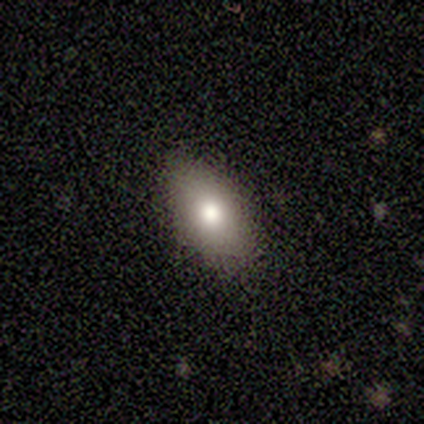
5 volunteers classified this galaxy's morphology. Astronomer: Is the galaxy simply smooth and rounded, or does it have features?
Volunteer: smooth — 60%.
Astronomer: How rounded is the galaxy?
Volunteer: in between — 67%.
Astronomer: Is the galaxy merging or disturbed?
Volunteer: minor disturbance — 75%.